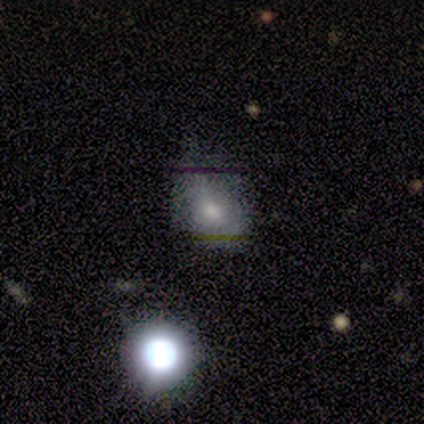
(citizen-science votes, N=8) Smooth or featured? smooth (88%)
How rounded? in between (86%)
Merging? minor disturbance (62%)